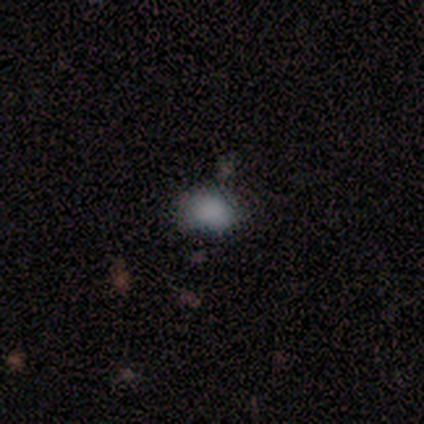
Volunteers were most divided on "merging" (4-way tie): none: 25%, minor disturbance: 25%, major disturbance: 25%, merger: 25%. More confident: how rounded — in between (100%); smooth or featured — smooth (80%).